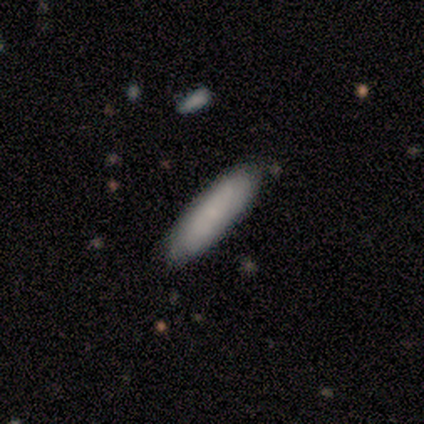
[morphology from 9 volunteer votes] Q: Smooth or featured?
A: smooth (67%); runner-up: featured or disk (33%)
Q: How rounded?
A: in between (50%); tied with: cigar-shaped (50%)
Q: Merging?
A: none (67%); runner-up: minor disturbance (33%)